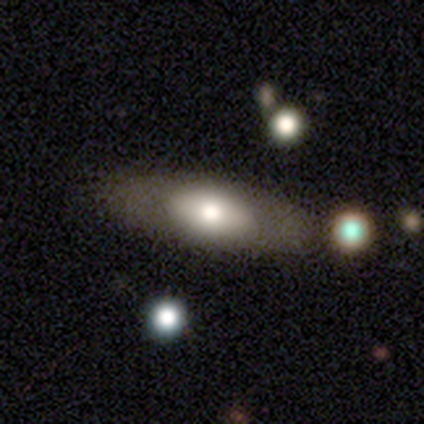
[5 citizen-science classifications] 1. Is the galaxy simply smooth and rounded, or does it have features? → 40% featured or disk (tied), 40% star or artifact (tied), 20% smooth.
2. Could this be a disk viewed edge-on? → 100% no, 0% yes.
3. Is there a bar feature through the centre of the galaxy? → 100% no, 0% strong, 0% weak.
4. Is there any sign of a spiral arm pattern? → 100% no, 0% yes.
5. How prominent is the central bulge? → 50% large (tied), 50% moderate (tied), 0% dominant, 0% small, 0% none.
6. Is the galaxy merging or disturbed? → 67% none, 33% minor disturbance, 0% major disturbance, 0% merger.